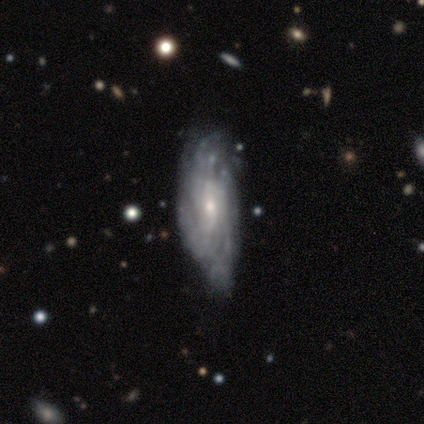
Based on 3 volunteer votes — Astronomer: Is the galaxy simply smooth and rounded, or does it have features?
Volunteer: featured or disk — 100%.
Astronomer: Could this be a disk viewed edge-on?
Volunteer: no — 100%.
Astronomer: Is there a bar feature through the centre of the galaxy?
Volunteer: weak — 67%.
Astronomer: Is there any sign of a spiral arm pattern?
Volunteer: yes — 67%.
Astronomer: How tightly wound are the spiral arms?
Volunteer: tight — 50%, tied with medium at 50%.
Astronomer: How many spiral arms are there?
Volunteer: can't tell — 100%.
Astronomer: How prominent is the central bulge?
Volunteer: small — 67%.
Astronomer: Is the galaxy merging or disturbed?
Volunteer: none — 33%, tied with minor disturbance and major disturbance at 33%.